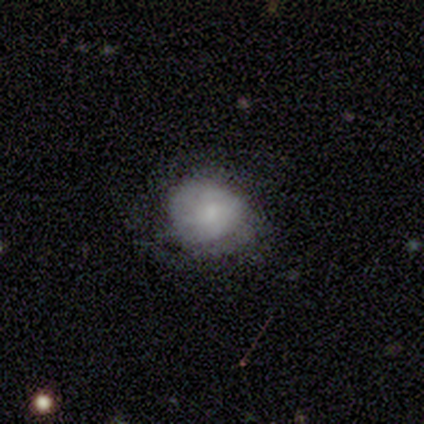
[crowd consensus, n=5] Smooth or featured? 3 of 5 (60%) said featured or disk. Edge-on disk? 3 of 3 (100%) said no. Bar? 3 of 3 (100%) said no. Spiral arms? 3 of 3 (100%) said yes. Spiral winding? 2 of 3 (67%) said medium. Spiral arm count? 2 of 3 (67%) said can't tell. Bulge size? 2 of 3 (67%) said moderate. Merging? 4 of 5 (80%) said none.